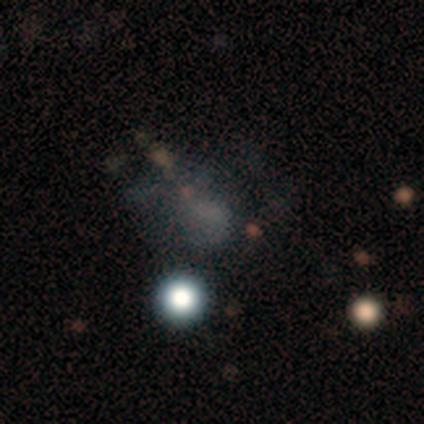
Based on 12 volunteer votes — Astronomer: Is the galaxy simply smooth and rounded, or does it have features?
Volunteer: star or artifact — 58%.